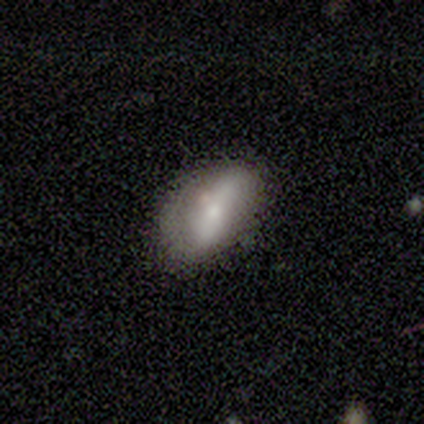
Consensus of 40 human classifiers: A smooth galaxy with no disk features (62%) that is in between round and cigar-shaped (88%).

Vote fractions:
- Smooth or featured? smooth: 62% / featured or disk: 30% / star or artifact: 8%
- How rounded? in between: 88% / round: 12% / cigar-shaped: 0%
- Merging? none: 54% / minor disturbance: 38% / major disturbance: 8% / merger: 0%